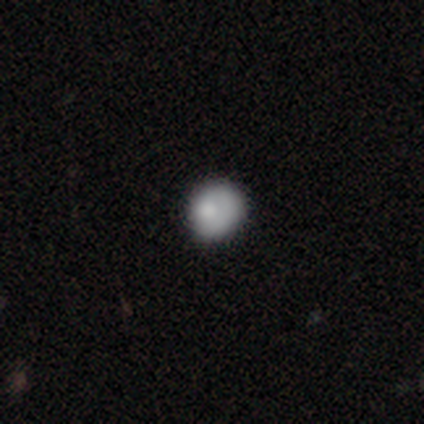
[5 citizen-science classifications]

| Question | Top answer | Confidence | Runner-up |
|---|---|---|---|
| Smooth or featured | smooth | 80% | featured or disk (20%) |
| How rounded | round | 100% | — |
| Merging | none | 100% | — |